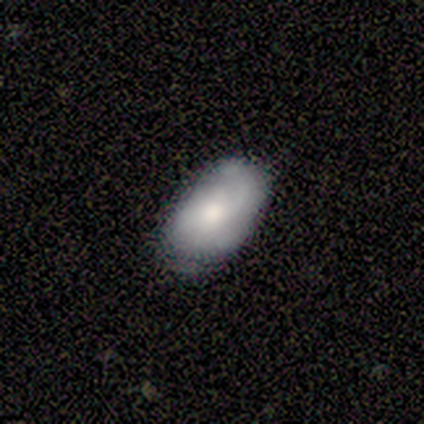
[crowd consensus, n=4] Smooth or featured?
  - smooth: 75% *
  - star or artifact: 25%
  - featured or disk: 0%
How rounded?
  - in between: 100% *
  - round: 0%
  - cigar-shaped: 0%
Merging?
  - none: 100% *
  - minor disturbance: 0%
  - major disturbance: 0%
  - merger: 0%